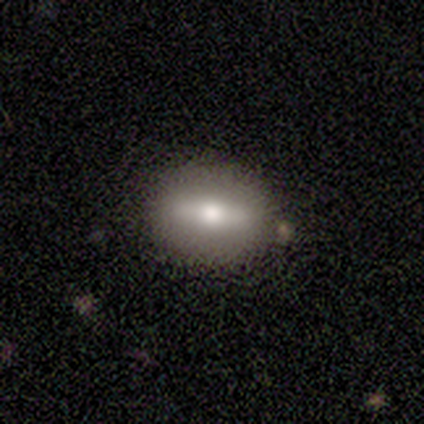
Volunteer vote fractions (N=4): Morphology: type=featured or disk (75%); edge-on=yes (100%); edge-on bulge=rounded (100%); merging=none (75%).